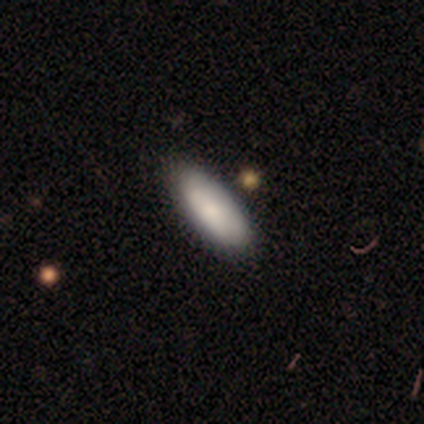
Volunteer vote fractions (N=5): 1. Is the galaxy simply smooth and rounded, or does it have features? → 100% smooth, 0% featured or disk, 0% star or artifact.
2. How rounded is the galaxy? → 60% cigar-shaped, 40% in between, 0% round.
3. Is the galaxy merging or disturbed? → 60% none, 20% major disturbance, 20% merger, 0% minor disturbance.